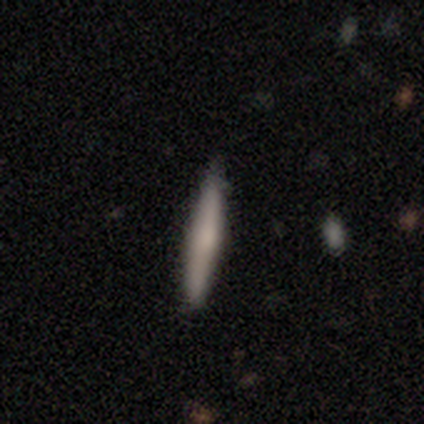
A smooth galaxy with no disk features (60%) that is cigar-shaped (100%). Merging: none (100%).